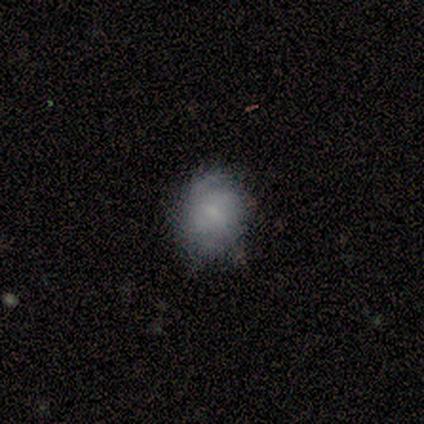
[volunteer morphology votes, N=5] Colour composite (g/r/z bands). It shows a featured or disk galaxy (80%) with no bar (75%), tight (50%, tied with loose) spiral arms (50%, tied with no) and a small central bulge (50%). Merging: minor disturbance (80%).